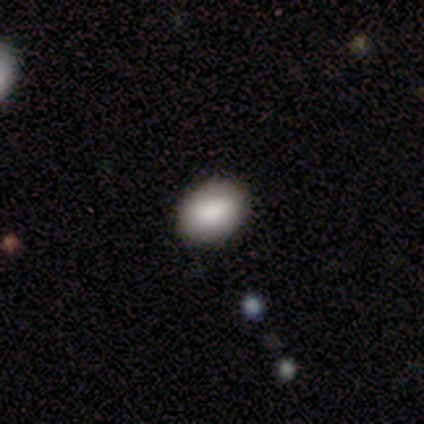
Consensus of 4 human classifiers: Smooth or featured? 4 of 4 (100%) said smooth. How rounded? 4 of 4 (100%) said in between. Merging? 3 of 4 (75%) said none.